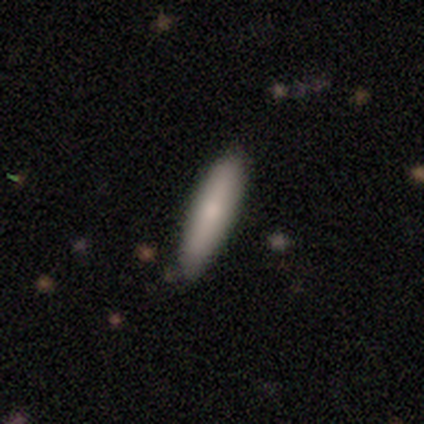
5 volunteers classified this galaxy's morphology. Smooth or featured?
  - smooth: 100% *
  - featured or disk: 0%
  - star or artifact: 0%
How rounded?
  - cigar-shaped: 100% *
  - round: 0%
  - in between: 0%
Merging?
  - none: 100% *
  - minor disturbance: 0%
  - major disturbance: 0%
  - merger: 0%